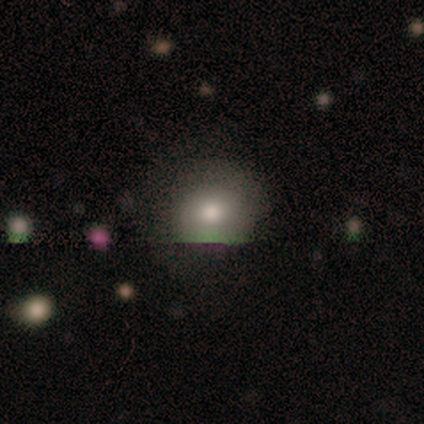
Smooth or featured? 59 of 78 (76%) said smooth. How rounded? 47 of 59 (80%) said round. Merging? 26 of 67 (39%) said none.